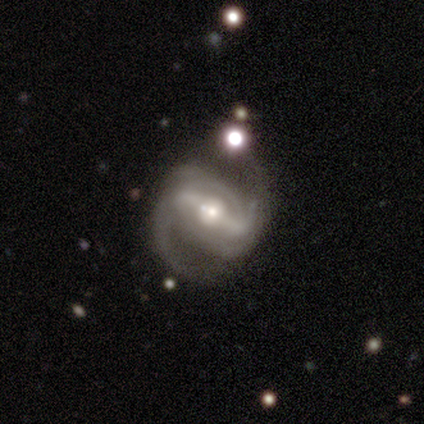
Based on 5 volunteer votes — Volunteers were most divided on "spiral winding" (2-way tie): tight: 40%, medium: 40%, loose: 20%. More confident: smooth or featured — featured or disk (100%); edge-on disk — no (100%); bar — strong (100%); spiral arms — yes (100%); spiral arm count — 2 (60%); bulge size — moderate (60%); merging — none (60%).